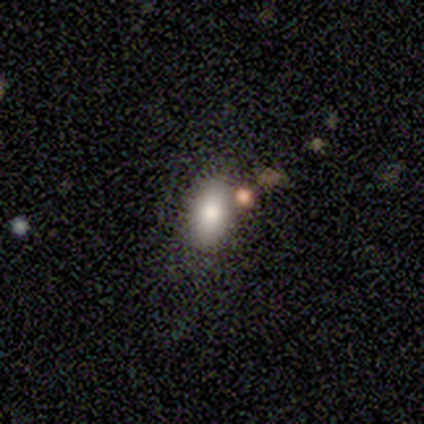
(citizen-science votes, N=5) Smooth or featured: smooth — 60% (featured or disk — 20%)
How rounded: in between — 100%
Merging: none — 25% (tied with minor disturbance — 25%; major disturbance — 25%; merger — 25%)